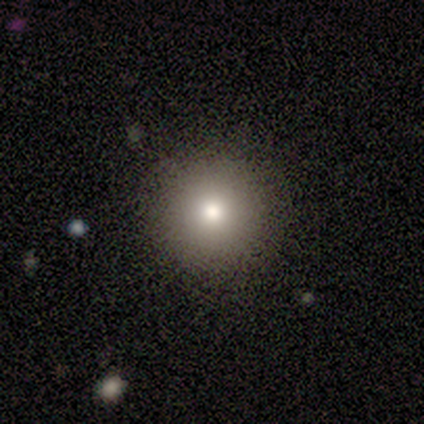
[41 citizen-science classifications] This appears to be a smooth galaxy with no disk features (68%) that is round (96%). Merging: none (97%).